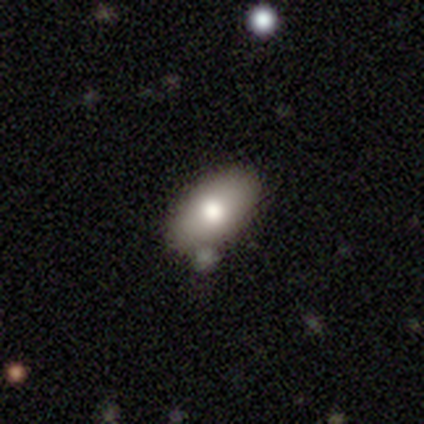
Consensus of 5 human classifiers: Overall: smooth (80%). How rounded: in between (100%). Merging: none (60%; minor disturbance 40%).